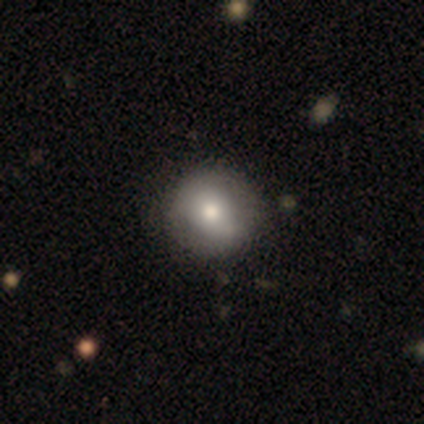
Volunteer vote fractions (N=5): Volunteers were most divided on "smooth or featured" (2-way tie): featured or disk: 40%, star or artifact: 40%, smooth: 20%; "bar" (2-way tie): weak: 50%, no: 50%, strong: 0%; "spiral arms" (2-way tie): yes: 50%, no: 50%. More confident: edge-on disk — no (100%); spiral winding — tight (100%); spiral arm count — can't tell (100%); bulge size — moderate (100%); merging — none (100%).